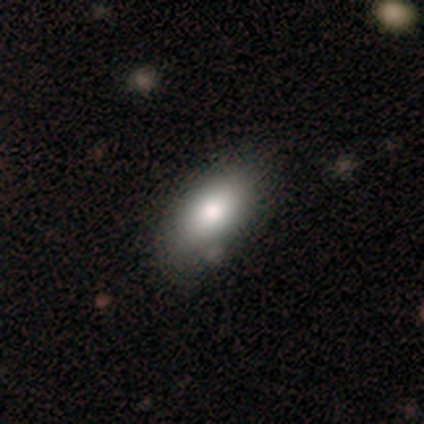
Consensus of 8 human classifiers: Volunteers were most divided on "how rounded": in between: 86%, round: 14%, cigar-shaped: 0%. More confident: smooth or featured — smooth (88%); merging — none (88%).